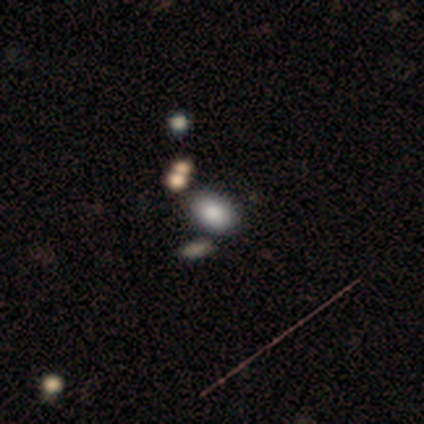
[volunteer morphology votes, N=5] smooth-or-featured: smooth: 60% | featured or disk: 40% | star or artifact: 0%
  how-rounded: in between: 100% | round: 0% | cigar-shaped: 0%
  merging: none: 80% | minor disturbance: 20% | major disturbance: 0% | merger: 0%